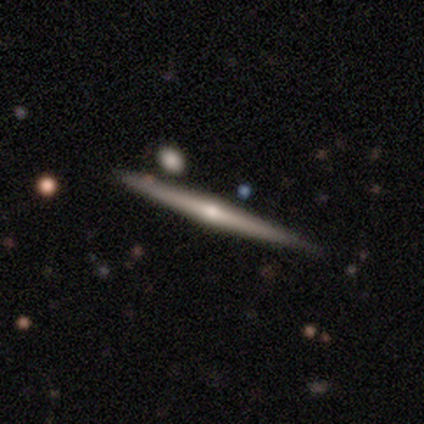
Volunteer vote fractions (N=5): Volunteers were most divided on "smooth or featured": featured or disk: 60%, smooth: 40%, star or artifact: 0%. More confident: edge-on disk — yes (100%); merging — none (100%); edge-on bulge — rounded (67%).